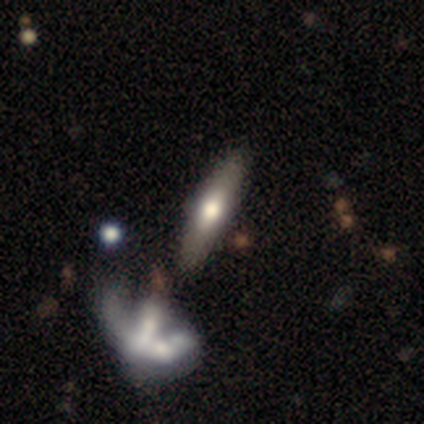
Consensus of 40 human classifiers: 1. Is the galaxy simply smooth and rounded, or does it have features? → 57% featured or disk, 38% smooth, 5% star or artifact.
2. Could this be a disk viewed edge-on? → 65% yes, 35% no.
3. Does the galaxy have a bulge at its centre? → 93% rounded, 7% boxy, 0% none.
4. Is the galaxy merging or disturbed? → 71% none, 18% merger, 11% minor disturbance, 0% major disturbance.